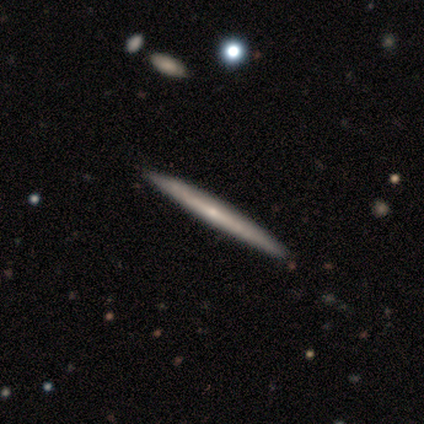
A featured or disk galaxy (74%) viewed edge-on (89%) with no central bulge (64%). Merging: none (82%).